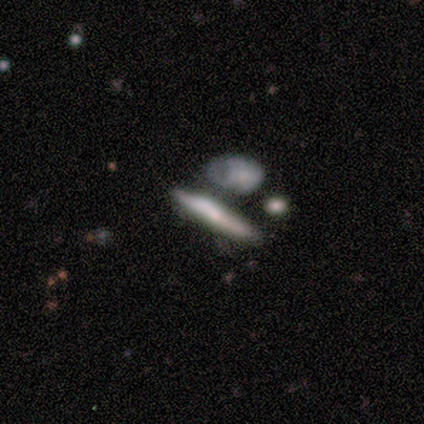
smooth-or-featured: smooth: 100% | featured or disk: 0% | star or artifact: 0%
  how-rounded: cigar-shaped: 100% | round: 0% | in between: 0%
  merging: merger: 60% | none: 20% | major disturbance: 20% | minor disturbance: 0%